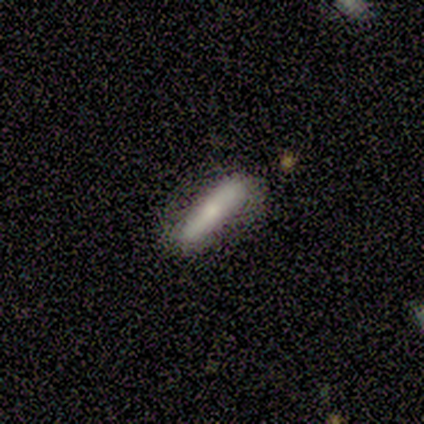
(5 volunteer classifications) Volunteers were most divided on "smooth or featured": smooth: 60%, featured or disk: 40%, star or artifact: 0%. More confident: how rounded — cigar-shaped (100%); merging — none (100%).